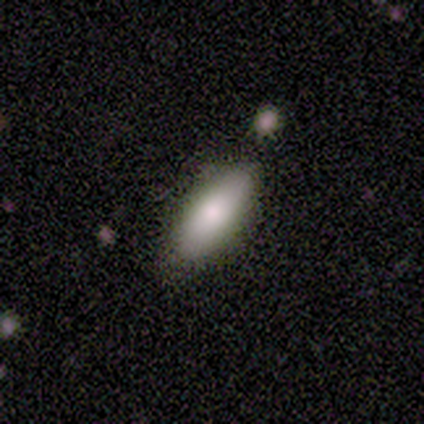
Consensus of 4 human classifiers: Smooth or featured? smooth (100%)
How rounded? in between (75%)
Merging? none (100%)